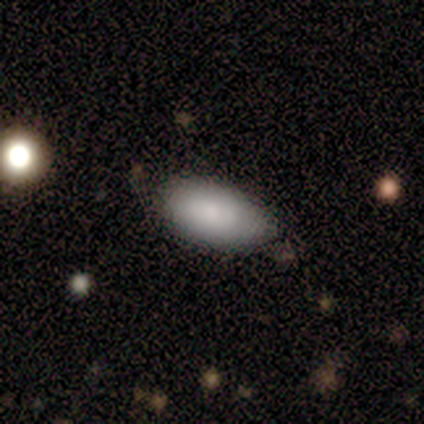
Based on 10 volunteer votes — Overall: smooth (80%). How rounded: in between (88%). Merging: none (100%).